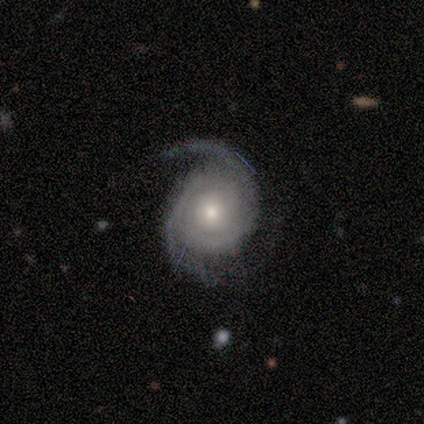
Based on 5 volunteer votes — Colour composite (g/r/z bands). It shows a featured or disk galaxy (100%) with no bar (60%), 2 (80%) tight (60%) spiral arms (100%) and a moderate central bulge (40%, tied with small). Merging: none (100%).